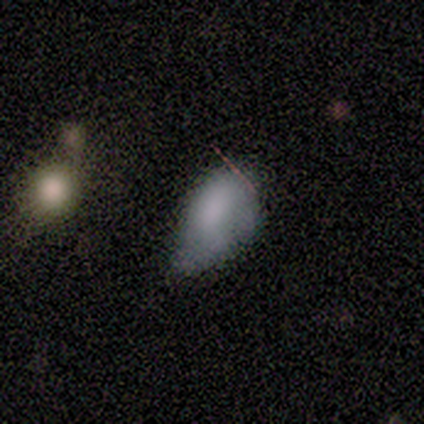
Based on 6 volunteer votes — Smooth or featured: smooth — 83% (featured or disk — 17%)
How rounded: in between — 100%
Merging: none — 50% (tied with minor disturbance — 50%)